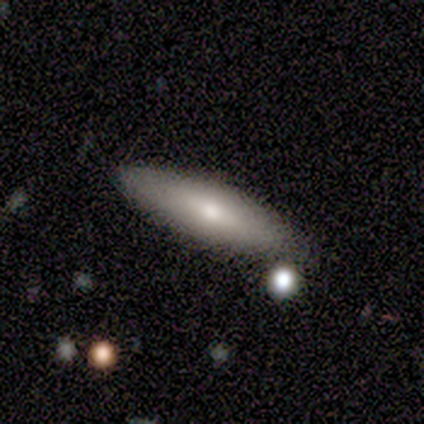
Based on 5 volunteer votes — Smooth or featured? 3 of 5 (60%) said smooth. How rounded? 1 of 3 (33%, tied with in between and cigar-shaped) said round. Merging? 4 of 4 (100%) said none.